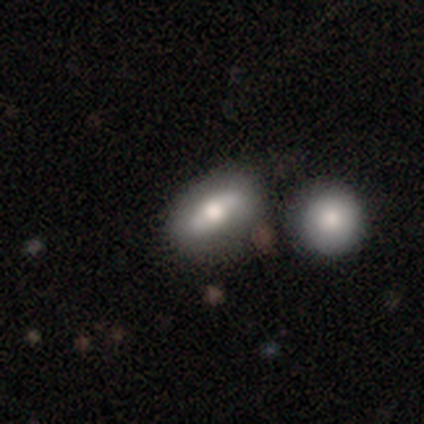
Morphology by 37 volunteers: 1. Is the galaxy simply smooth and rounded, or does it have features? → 57% featured or disk, 38% smooth, 5% star or artifact.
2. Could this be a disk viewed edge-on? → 62% no, 38% yes.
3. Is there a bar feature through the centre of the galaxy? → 77% no, 15% strong, 8% weak.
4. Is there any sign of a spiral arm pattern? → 54% yes, 46% no.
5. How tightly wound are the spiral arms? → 43% tight, 29% medium, 29% loose.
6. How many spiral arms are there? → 43% 2, 29% 1, 29% can't tell, 0% 3, 0% 4, 0% more than 4.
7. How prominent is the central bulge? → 46% moderate, 38% large, 8% small, 8% none, 0% dominant.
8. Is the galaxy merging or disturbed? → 74% none, 14% merger, 9% minor disturbance, 3% major disturbance.